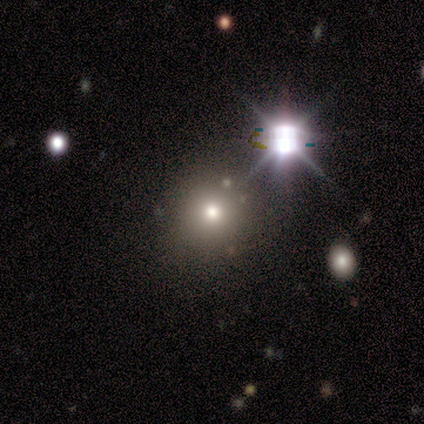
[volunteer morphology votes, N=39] smooth_or_featured: star or artifact (p=0.49) [alt: smooth p=0.38]